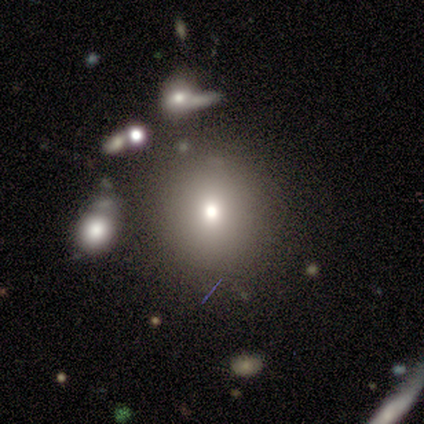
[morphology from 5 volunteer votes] Overall: smooth (80%). How rounded: round (75%). Merging: none (100%).